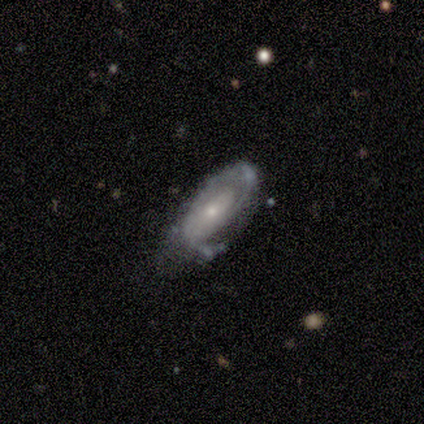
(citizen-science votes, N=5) Q: Smooth or featured?
A: featured or disk (60%); runner-up: smooth (40%)
Q: Edge-on disk?
A: no (100%)
Q: Bar?
A: no (100%)
Q: Spiral arms?
A: yes (67%); runner-up: no (33%)
Q: Spiral winding?
A: tight (100%)
Q: Spiral arm count?
A: 2 (50%); tied with: can't tell (50%)
Q: Bulge size?
A: small (67%); runner-up: moderate (33%)
Q: Merging?
A: none (40%); tied with: major disturbance (40%)